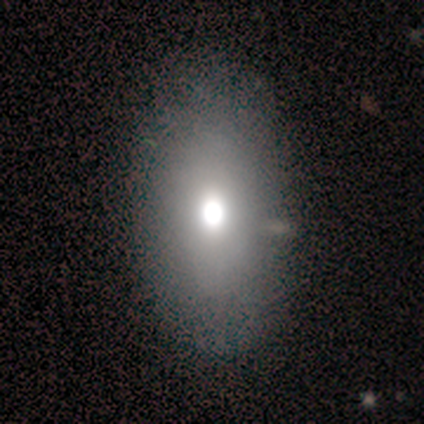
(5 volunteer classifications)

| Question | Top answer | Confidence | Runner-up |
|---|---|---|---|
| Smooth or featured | smooth | 40% | tied: star or artifact (40%) |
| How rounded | in between | 100% | — |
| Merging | none | 67% | minor disturbance (33%) |